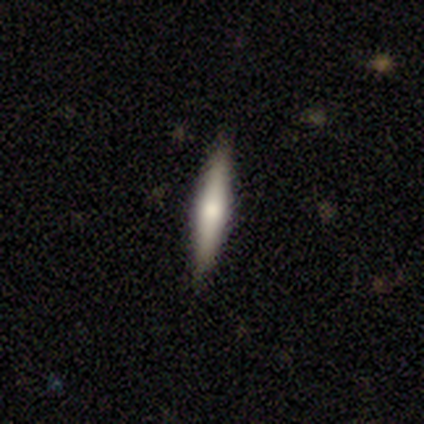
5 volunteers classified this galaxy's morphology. type=smooth (60%); roundness=cigar-shaped (100%); merging=none (100%).